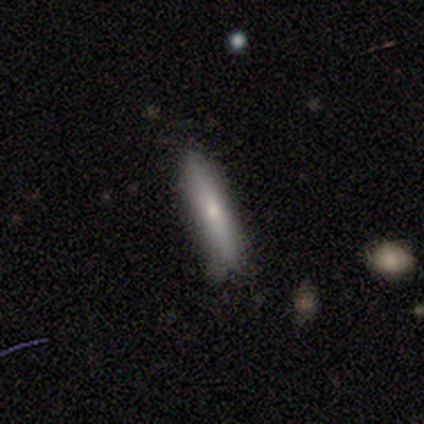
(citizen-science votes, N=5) Smooth or featured? smooth (80%)
How rounded? cigar-shaped (100%)
Merging? none (60%)